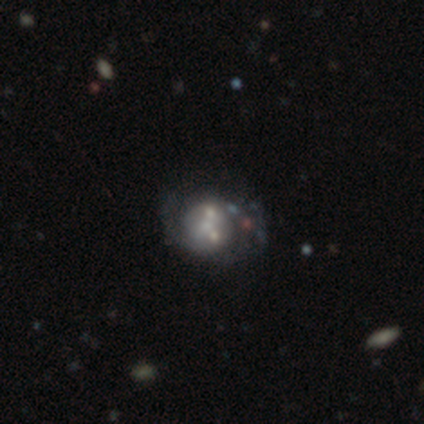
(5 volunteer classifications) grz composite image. It shows a featured or disk galaxy (100%) with no bar (60%), 2 (50%, tied with can't tell) medium (50%) spiral arms (80%) and a moderate central bulge (40%, tied with small). Merging: none (60%).